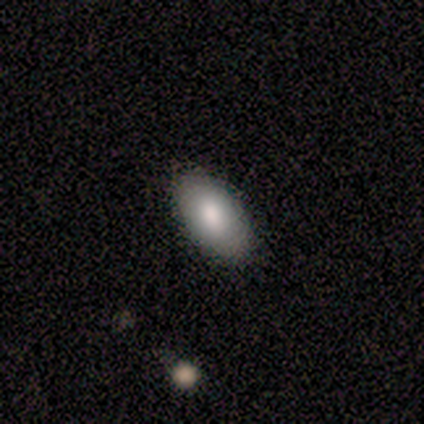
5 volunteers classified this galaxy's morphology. smooth_or_featured: smooth (p=0.80) [alt: featured or disk p=0.20]
how_rounded: in between (p=1.00)
merging: none (p=0.80) [alt: minor disturbance p=0.20]